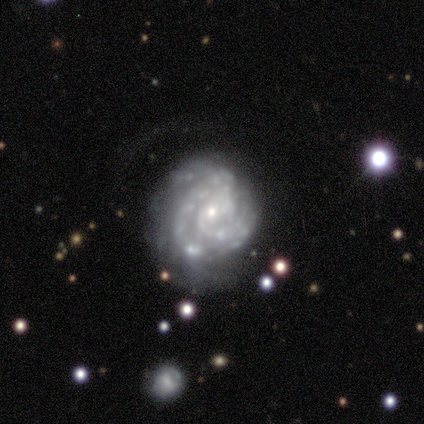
Overall: featured or disk (67%; smooth 33%). Edge-on disk: no (100%). Bar: strong (50%, tied with weak). Spiral arms: yes (50%, tied with no). Spiral arm count: 3 (100%). Spiral winding: tight (100%). Bulge size: dominant (50%, tied with small). Merging: none (67%; minor disturbance 33%).